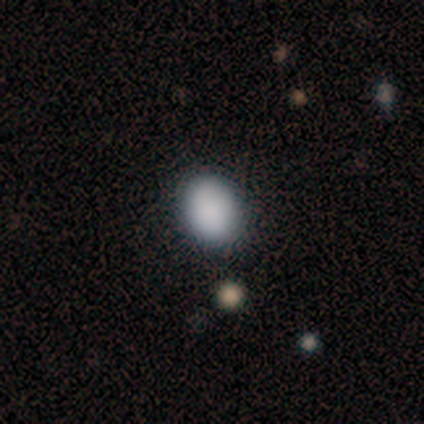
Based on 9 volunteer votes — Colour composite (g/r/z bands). It shows a smooth galaxy with no disk features (89%) that is in between round and cigar-shaped (62%). Merging: none (100%).